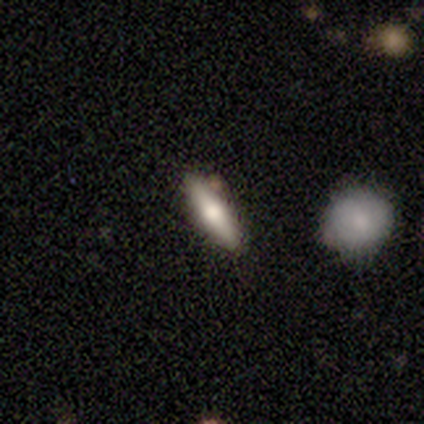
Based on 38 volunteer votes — Morphology: type=smooth (55%); roundness=cigar-shaped (67%); merging=none (89%).